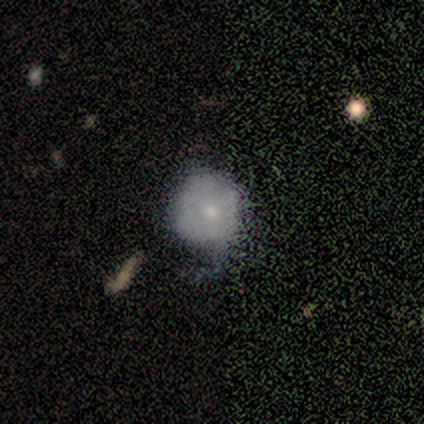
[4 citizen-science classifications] Overall: smooth (50%, tied with featured or disk). How rounded: round (100%). Merging: none (50%; minor disturbance 25%).